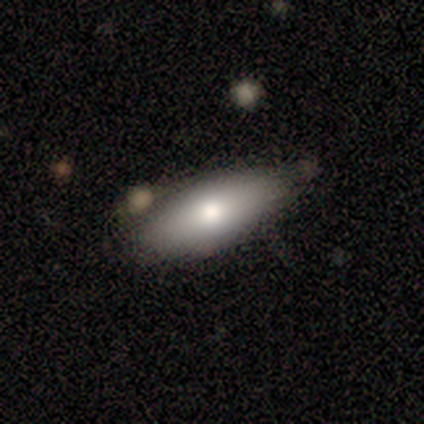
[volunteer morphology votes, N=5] Volunteers were most divided on "how rounded": in between: 60%, cigar-shaped: 40%, round: 0%. More confident: smooth or featured — smooth (100%); merging — none (80%).